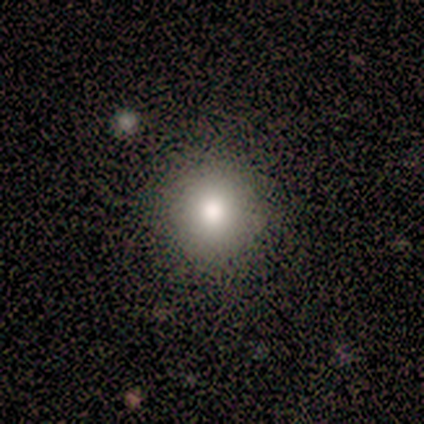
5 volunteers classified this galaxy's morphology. Smooth or featured? 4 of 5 (80%) said smooth. How rounded? 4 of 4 (100%) said round. Merging? 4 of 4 (100%) said none.